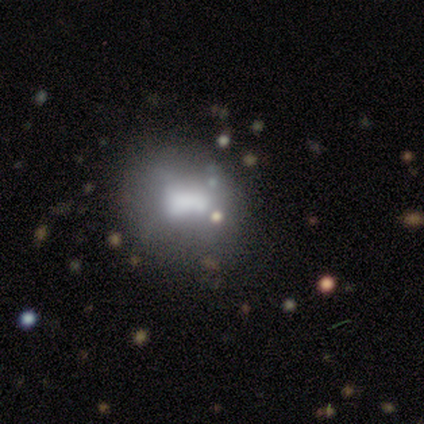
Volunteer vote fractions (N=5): Smooth or featured? smooth (40%, tied with featured or disk)
How rounded? round (50%, tied with in between)
Merging? none (50%, tied with merger)